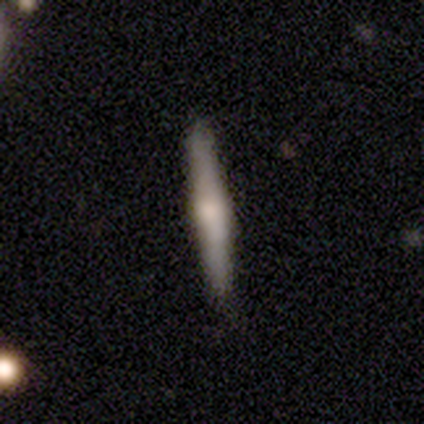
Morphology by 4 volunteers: type=featured or disk (75%); edge-on=yes (100%); edge-on bulge=rounded (100%); merging=none (100%).